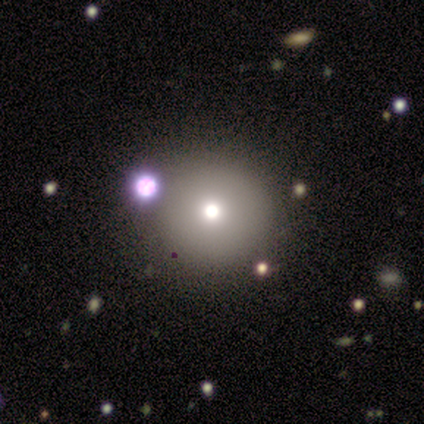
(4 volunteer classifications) This appears to be a smooth galaxy with no disk features (75%) that is round (100%). Merging: none (100%).